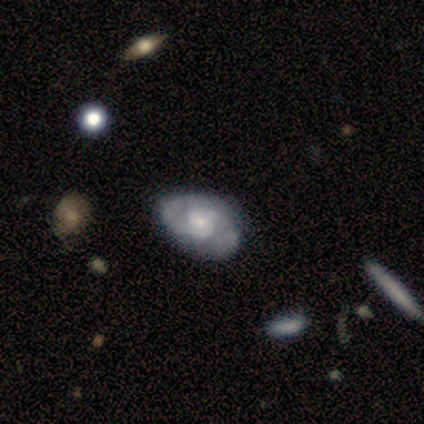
Smooth or featured?
  - featured or disk: 100% *
  - smooth: 0%
  - star or artifact: 0%
Edge-on disk?
  - no: 100% *
  - yes: 0%
Bar?
  - no: 60% *
  - strong: 20%
  - weak: 20%
Spiral arms?
  - yes: 100% *
  - no: 0%
Spiral winding?
  - tight: 60% *
  - medium: 40%
  - loose: 0%
Spiral arm count?
  - 2: 80% *
  - 3: 20%
  - 1: 0%
  - 4: 0%
  - more than 4: 0%
  - can't tell: 0%
Bulge size?
  - moderate: 60% *
  - small: 40%
  - dominant: 0%
  - large: 0%
  - none: 0%
Merging?
  - none: 60% *
  - minor disturbance: 20%
  - major disturbance: 20%
  - merger: 0%